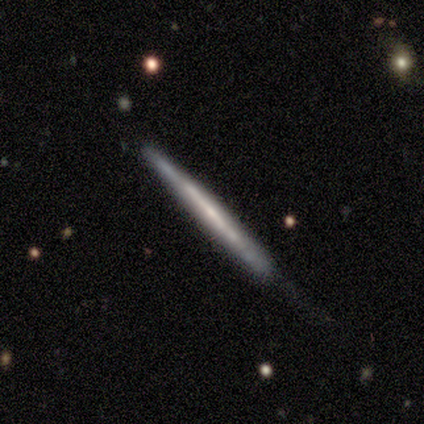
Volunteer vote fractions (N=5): Q: Smooth or featured?
A: featured or disk (80%); runner-up: smooth (20%)
Q: Edge-on disk?
A: yes (100%)
Q: Edge-on bulge?
A: none (75%); runner-up: boxy (25%)
Q: Merging?
A: none (60%); runner-up: minor disturbance (40%)